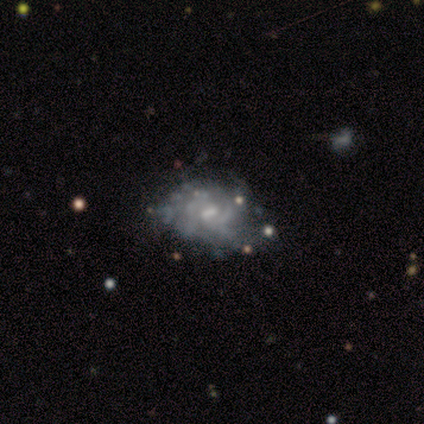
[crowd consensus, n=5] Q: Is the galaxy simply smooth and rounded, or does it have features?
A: featured or disk — 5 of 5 (100%).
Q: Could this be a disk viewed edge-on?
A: no — 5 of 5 (100%).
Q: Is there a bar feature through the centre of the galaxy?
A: no — 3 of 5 (60%).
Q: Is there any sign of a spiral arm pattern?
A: no — 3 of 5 (60%).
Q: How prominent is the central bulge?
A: small — 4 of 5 (80%).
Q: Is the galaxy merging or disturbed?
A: none — 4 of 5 (80%).